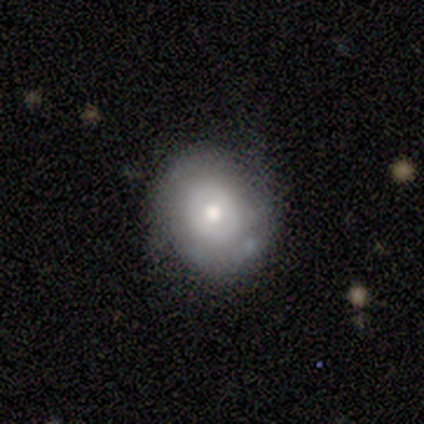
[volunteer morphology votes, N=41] A smooth galaxy with no disk features (51%) that is round (90%).

Vote fractions:
- Smooth or featured? smooth: 51% / featured or disk: 44% / star or artifact: 5%
- How rounded? round: 90% / in between: 10% / cigar-shaped: 0%
- Merging? none: 74% / minor disturbance: 18% / major disturbance: 5% / merger: 3%